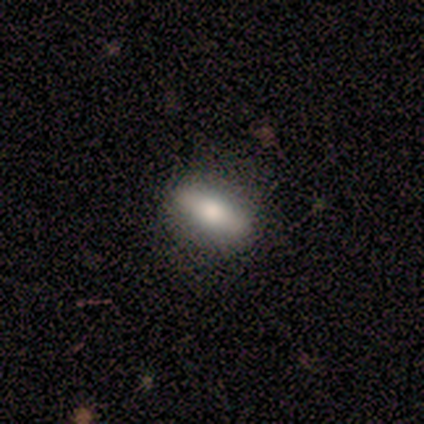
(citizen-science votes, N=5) Morphology: type=smooth (80%); roundness=cigar-shaped (75%); merging=none (80%).